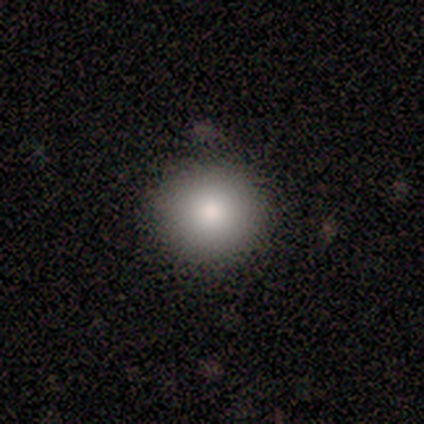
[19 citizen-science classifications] Smooth or featured? smooth (74%)
How rounded? round (100%)
Merging? none (88%)